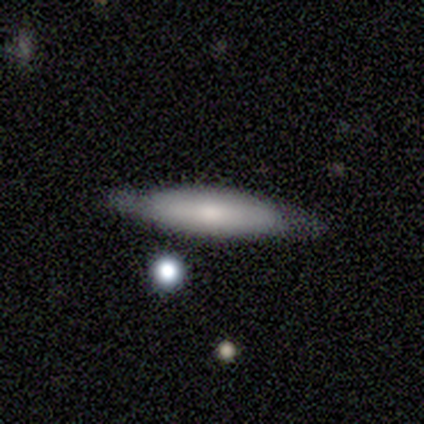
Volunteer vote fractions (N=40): smooth-or-featured: smooth: 57% | featured or disk: 42% | star or artifact: 0%
  how-rounded: cigar-shaped: 70% | in between: 30% | round: 0%
  merging: none: 85% | minor disturbance: 15% | major disturbance: 0% | merger: 0%